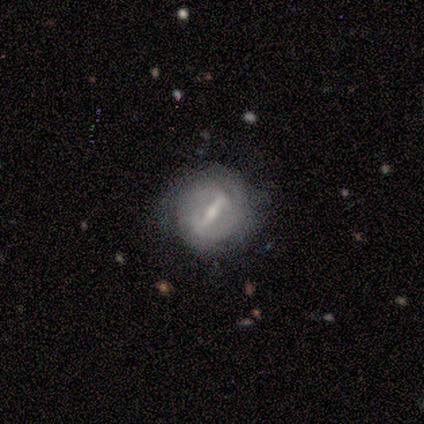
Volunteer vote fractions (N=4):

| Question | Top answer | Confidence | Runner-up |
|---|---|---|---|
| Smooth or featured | featured or disk | 50% | smooth (25%) |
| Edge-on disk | yes | 50% | tied: no (50%) |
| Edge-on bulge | rounded | 100% | — |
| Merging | none | 33% | tied: minor disturbance (33%), merger (33%) |